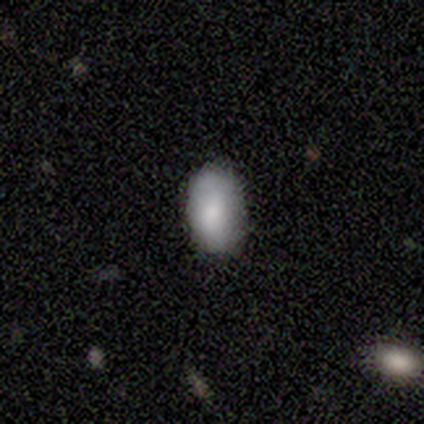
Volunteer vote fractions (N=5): smooth-or-featured: smooth: 80% | star or artifact: 20% | featured or disk: 0%
  how-rounded: in between: 100% | round: 0% | cigar-shaped: 0%
  merging: none: 100% | minor disturbance: 0% | major disturbance: 0% | merger: 0%